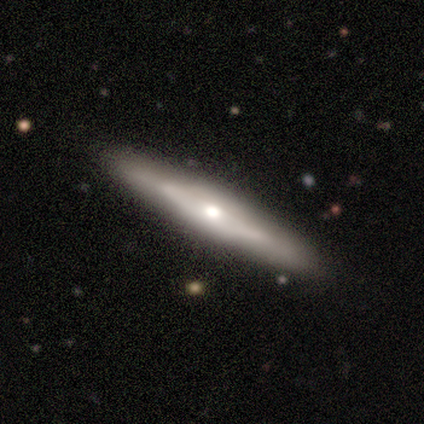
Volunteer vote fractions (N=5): A featured or disk galaxy (100%) viewed edge-on (100%) with a rounded central bulge (60%). Merging: none (100%).